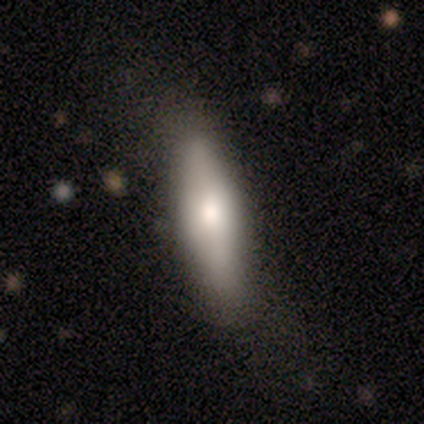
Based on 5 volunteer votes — Smooth or featured? 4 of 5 (80%) said smooth. How rounded? 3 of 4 (75%) said in between. Merging? 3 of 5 (60%) said minor disturbance.